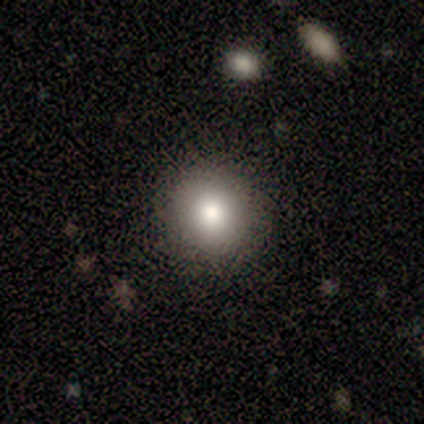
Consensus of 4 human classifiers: Smooth or featured? 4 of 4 (100%) said smooth. How rounded? 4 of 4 (100%) said round. Merging? 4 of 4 (100%) said none.